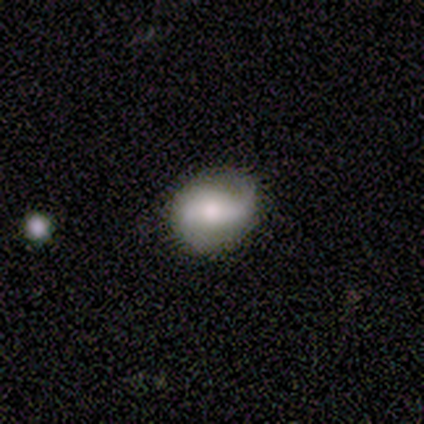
This appears to be a featured or disk galaxy (50%) with a strong bar (50%), 2 (100%) medium (83%) spiral arms (75%) and a large central bulge (50%). Merging: none (80%).